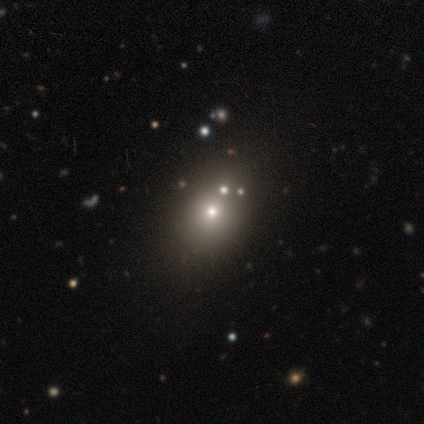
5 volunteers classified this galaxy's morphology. This is likely a smooth galaxy (60%). How rounded: likely in between (67%). Merging: possibly major disturbance (50%).